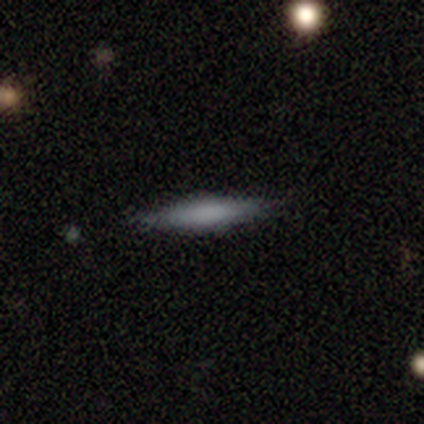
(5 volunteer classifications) Smooth or featured: smooth — 80% (featured or disk — 20%)
How rounded: cigar-shaped — 100%
Merging: none — 100%